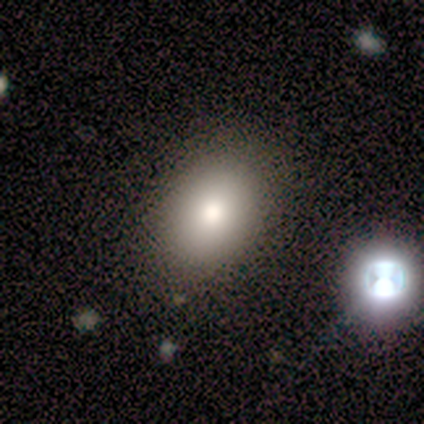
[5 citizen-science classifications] This is likely a smooth galaxy (60%). How rounded: likely in between (67%). Merging: likely none (67%).